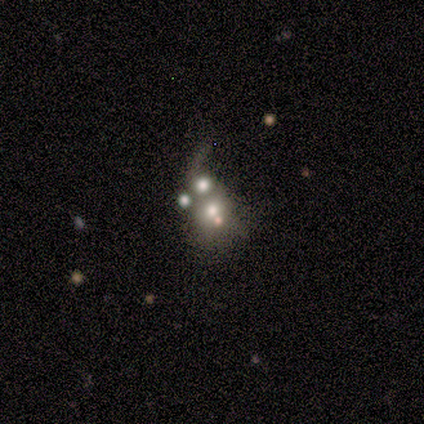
This appears to be a featured or disk galaxy (60%) with no bar (100%), no spiral arms (67%) and a moderate central bulge (67%). Merging: merger (40%).